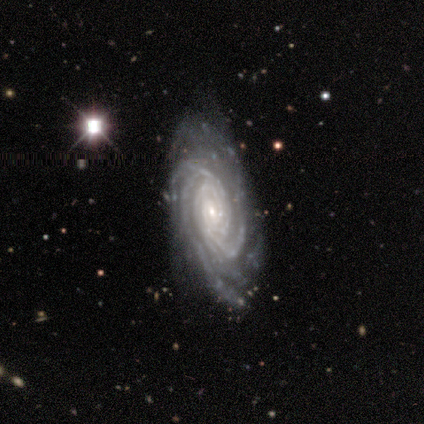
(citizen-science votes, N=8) featured or disk 75%, smooth 25%, star or artifact 0%. Down the decision tree: edge-on disk — no (100%); bar — no (50%); spiral arms — yes (100%); spiral arm count — can't tell (50%); spiral winding — tight (67%); bulge size — moderate (50%, tied with small); merging — none (75%).